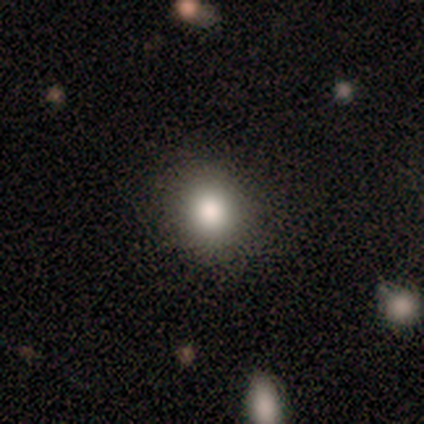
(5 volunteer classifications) A smooth galaxy with no disk features (100%) that is round (100%). Merging: none (60%).